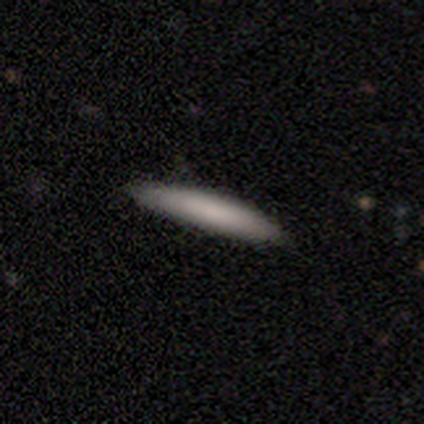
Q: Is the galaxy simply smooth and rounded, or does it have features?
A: smooth — 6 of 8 (75%).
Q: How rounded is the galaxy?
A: cigar-shaped — 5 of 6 (83%).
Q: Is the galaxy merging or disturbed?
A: none — 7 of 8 (88%).